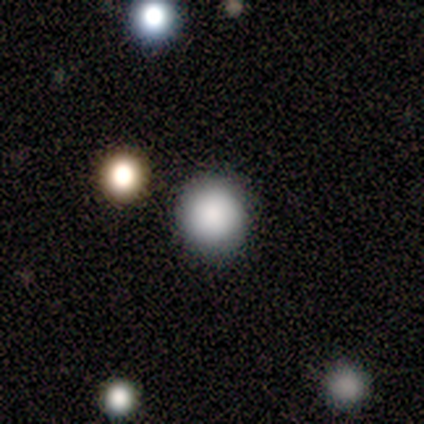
Smooth or featured? 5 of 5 (100%) said smooth. How rounded? 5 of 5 (100%) said round. Merging? 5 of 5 (100%) said none.